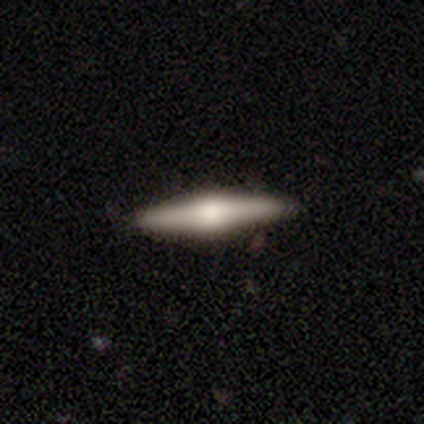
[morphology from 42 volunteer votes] Smooth or featured?
  - featured or disk: 69% *
  - smooth: 26%
  - star or artifact: 5%
Edge-on disk?
  - yes: 97% *
  - no: 3%
Edge-on bulge?
  - rounded: 71% *
  - boxy: 29%
  - none: 0%
Merging?
  - none: 92% *
  - minor disturbance: 8%
  - major disturbance: 0%
  - merger: 0%